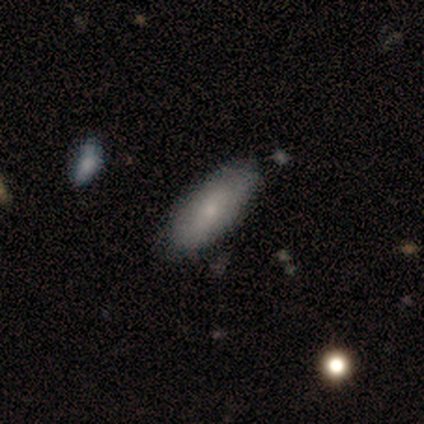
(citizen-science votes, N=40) A smooth galaxy with no disk features (68%) that is in between round and cigar-shaped (89%).

Vote fractions:
- Smooth or featured? smooth: 68% / featured or disk: 30% / star or artifact: 2%
- How rounded? in between: 89% / cigar-shaped: 11% / round: 0%
- Merging? none: 62% / minor disturbance: 13% / merger: 5% / major disturbance: 0%